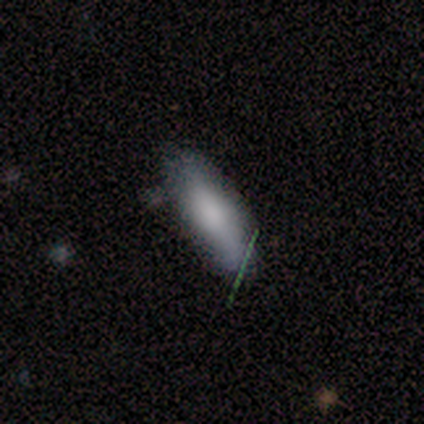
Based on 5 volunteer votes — smooth-or-featured: smooth: 80% | star or artifact: 20% | featured or disk: 0%
  how-rounded: cigar-shaped: 75% | in between: 25% | round: 0%
  merging: none: 75% | minor disturbance: 25% | major disturbance: 0% | merger: 0%